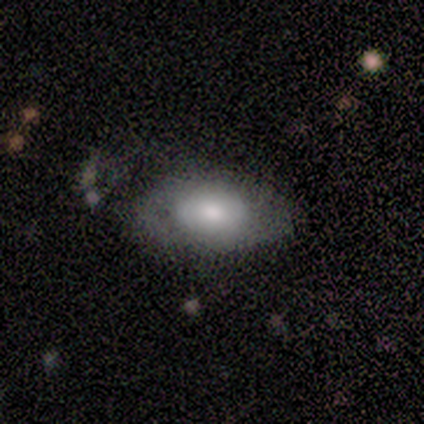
A smooth galaxy with no disk features (60%) that is in between round and cigar-shaped (67%).

Vote fractions:
- Smooth or featured? smooth: 60% / featured or disk: 40% / star or artifact: 0%
- How rounded? in between: 67% / round: 33% / cigar-shaped: 0%
- Merging? none: 80% / merger: 20% / minor disturbance: 0% / major disturbance: 0%